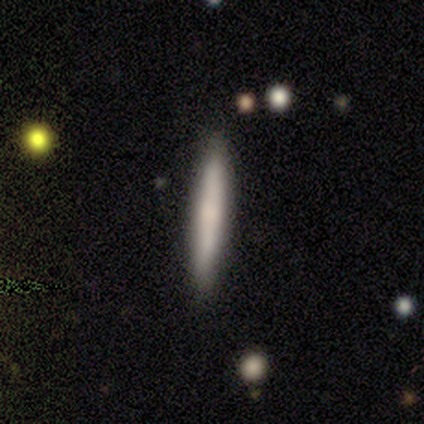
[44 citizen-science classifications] Morphology: type=smooth (70%); roundness=cigar-shaped (100%); merging=none (98%).